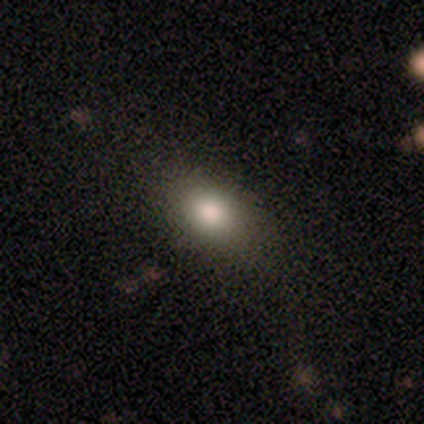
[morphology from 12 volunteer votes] smooth_or_featured: smooth (p=0.92) [alt: featured or disk p=0.08]
how_rounded: in between (p=0.82) [alt: round p=0.09]
merging: none (p=0.83) [alt: minor disturbance p=0.08]